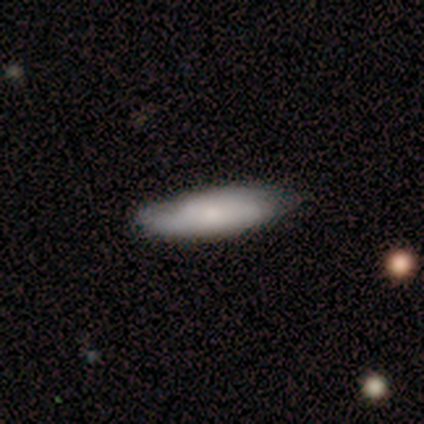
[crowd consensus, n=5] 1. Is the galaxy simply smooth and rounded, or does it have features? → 60% smooth, 40% featured or disk, 0% star or artifact.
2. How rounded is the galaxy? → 67% cigar-shaped, 33% in between, 0% round.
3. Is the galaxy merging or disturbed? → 60% none, 40% minor disturbance, 0% major disturbance, 0% merger.